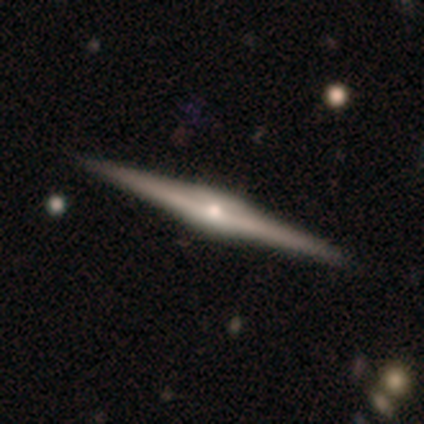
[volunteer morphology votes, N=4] featured or disk 75%, star or artifact 25%, smooth 0%. Down the decision tree: edge-on disk — yes (100%); edge-on bulge — rounded (100%); merging — none (100%).